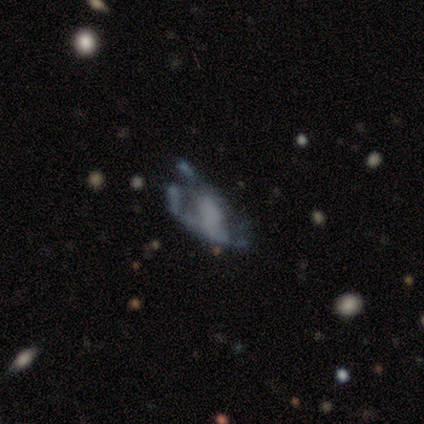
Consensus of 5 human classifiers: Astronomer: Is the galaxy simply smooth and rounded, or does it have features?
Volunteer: featured or disk — 60% (runner-up: star or artifact, 40%).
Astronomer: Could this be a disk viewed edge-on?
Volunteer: no — 100%.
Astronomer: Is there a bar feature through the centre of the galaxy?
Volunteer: no — 67%.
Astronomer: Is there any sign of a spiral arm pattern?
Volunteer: no — 100%.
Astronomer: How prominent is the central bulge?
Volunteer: none — 67%.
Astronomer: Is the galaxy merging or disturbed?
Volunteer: major disturbance — 67%.